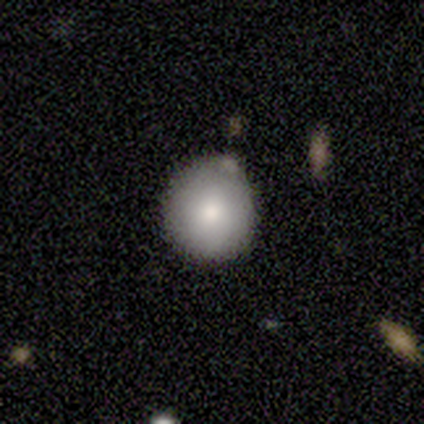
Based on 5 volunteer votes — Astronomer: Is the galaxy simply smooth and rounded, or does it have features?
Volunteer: smooth — 100%.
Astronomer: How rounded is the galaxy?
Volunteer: round — 100%.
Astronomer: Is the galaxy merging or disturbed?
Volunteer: none — 60% (runner-up: minor disturbance, 40%).